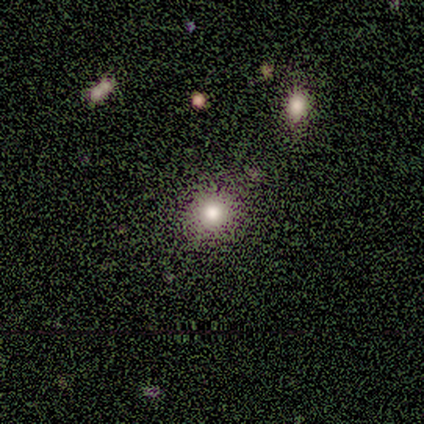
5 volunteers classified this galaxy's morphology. Smooth or featured: smooth — 100%
How rounded: in between — 60% (round — 40%)
Merging: none — 60% (minor disturbance — 40%)